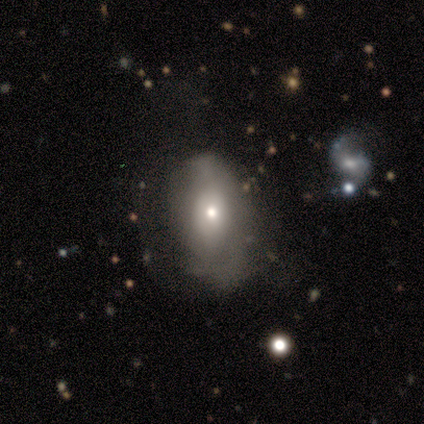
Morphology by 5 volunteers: This appears to be a smooth galaxy with no disk features (80%) that is in between round and cigar-shaped (75%). Merging: minor disturbance (40%, tied with major disturbance).